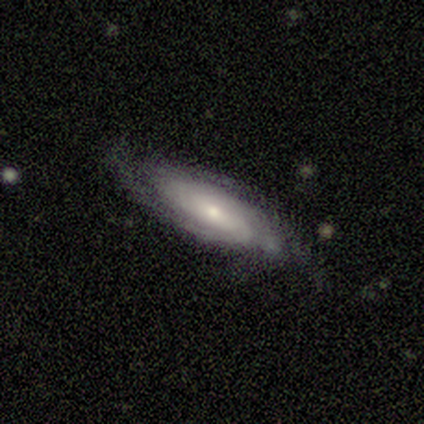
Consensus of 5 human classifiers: This appears to be a featured or disk galaxy (100%) with a weak bar (50%, tied with no), tight (75%) spiral arms (100%) and a moderate central bulge (75%). Merging: minor disturbance (60%).